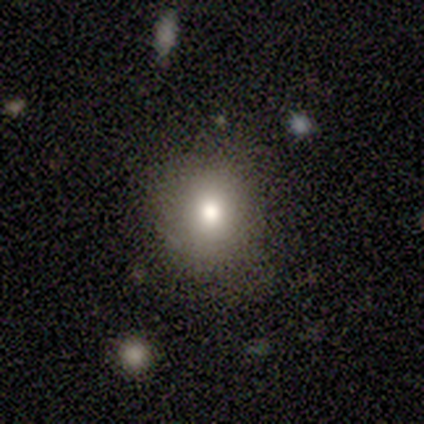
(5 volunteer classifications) smooth-or-featured: smooth: 80% | star or artifact: 20% | featured or disk: 0%
  how-rounded: round: 100% | in between: 0% | cigar-shaped: 0%
  merging: none: 75% | major disturbance: 25% | minor disturbance: 0% | merger: 0%